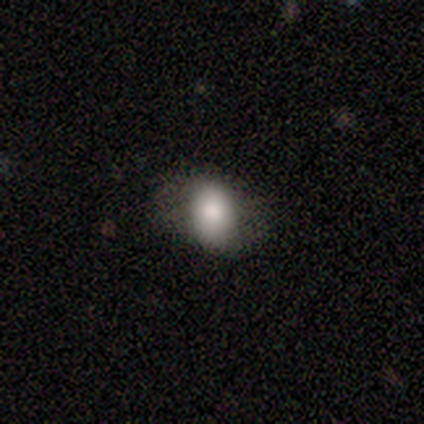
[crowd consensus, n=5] Morphology: type=smooth (60%); roundness=in between (100%); merging=none (50%).